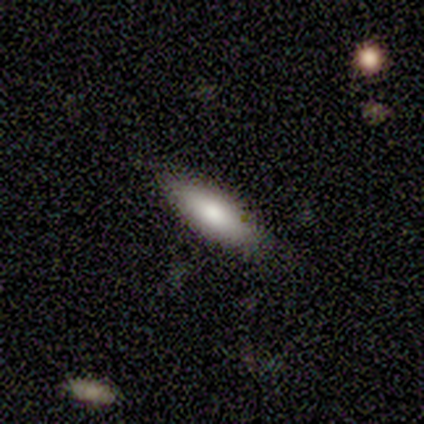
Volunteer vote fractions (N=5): smooth-or-featured: smooth: 100% | featured or disk: 0% | star or artifact: 0%
  how-rounded: in between: 40% (tied) | cigar-shaped: 40% (tied) | round: 20%
  merging: none: 100% | minor disturbance: 0% | major disturbance: 0% | merger: 0%